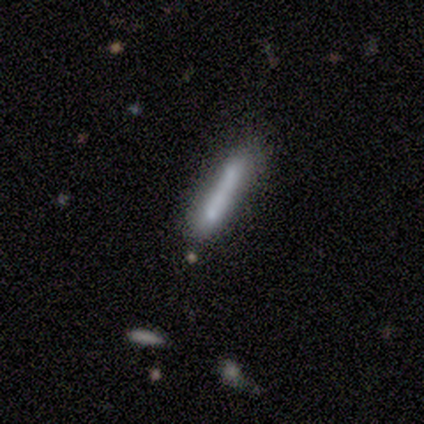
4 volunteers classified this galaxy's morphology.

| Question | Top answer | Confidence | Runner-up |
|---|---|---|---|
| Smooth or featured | smooth | 50% | featured or disk (25%) |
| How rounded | cigar-shaped | 100% | — |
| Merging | none | 67% | merger (33%) |